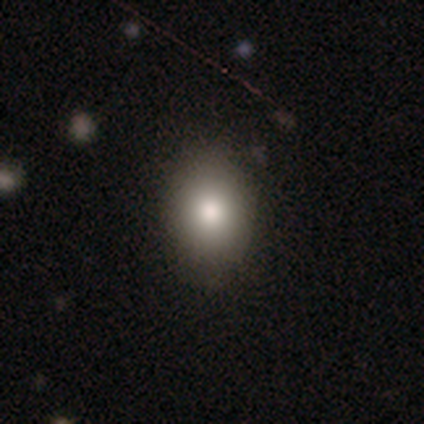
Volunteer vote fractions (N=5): Smooth or featured? smooth (80%)
How rounded? in between (75%)
Merging? none (100%)